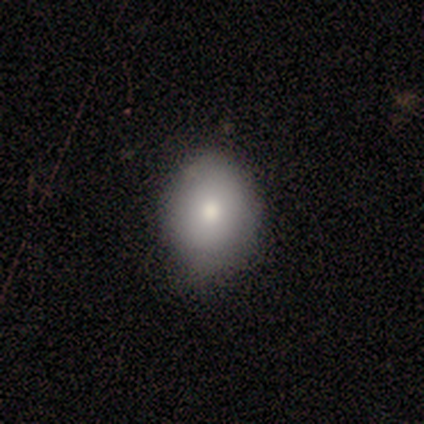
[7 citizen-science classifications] A smooth galaxy with no disk features (100%) that is round (57%).

Vote fractions:
- Smooth or featured? smooth: 100% / featured or disk: 0% / star or artifact: 0%
- How rounded? round: 57% / in between: 43% / cigar-shaped: 0%
- Merging? none: 71% / minor disturbance: 29% / major disturbance: 0% / merger: 0%